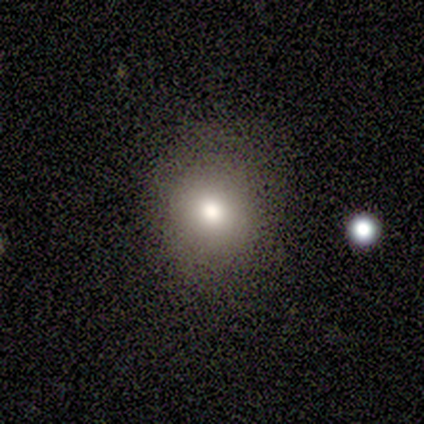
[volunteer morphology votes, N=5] type=smooth (40%, tied with star or artifact); roundness=round (100%); merging=none (100%).